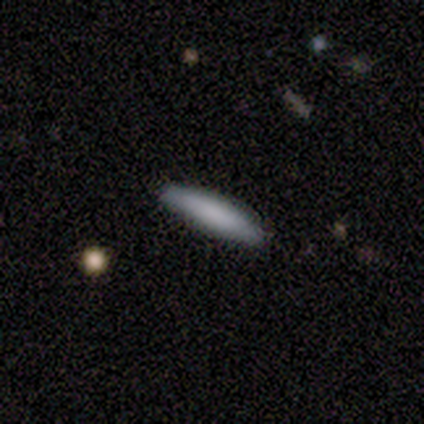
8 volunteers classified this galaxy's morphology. This is clearly a smooth galaxy (100%). How rounded: clearly cigar-shaped (100%). Merging: likely none (75%).